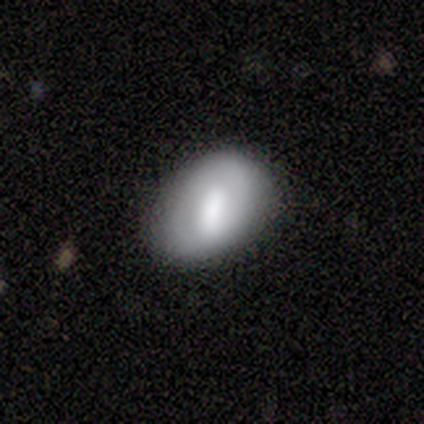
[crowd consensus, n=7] Smooth or featured?
  - smooth: 43% *
  - featured or disk: 29%
  - star or artifact: 29%
How rounded?
  - round: 67% *
  - in between: 33%
  - cigar-shaped: 0%
Merging?
  - none: 80% *
  - minor disturbance: 20%
  - major disturbance: 0%
  - merger: 0%